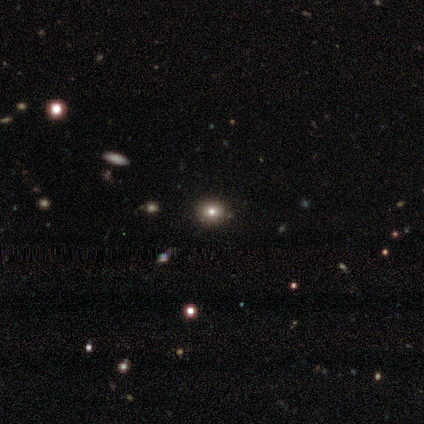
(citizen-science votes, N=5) A smooth galaxy with no disk features (80%) that is round (75%). Merging: none (100%).